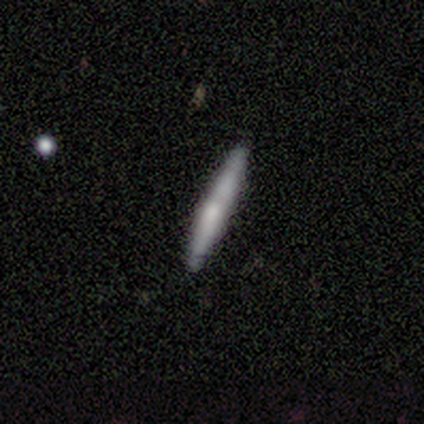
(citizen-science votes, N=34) smooth-or-featured: smooth: 53% | featured or disk: 38% | star or artifact: 9%
  how-rounded: cigar-shaped: 100% | round: 0% | in between: 0%
  merging: none: 84% | minor disturbance: 16% | major disturbance: 0% | merger: 0%